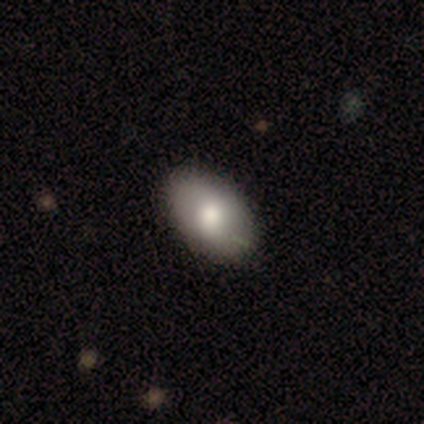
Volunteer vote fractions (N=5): smooth 60%, featured or disk 20%, star or artifact 20%. Down the decision tree: how rounded — in between (100%); merging — none (50%, tied with minor disturbance).